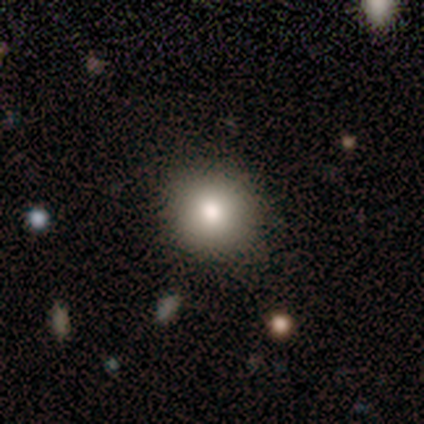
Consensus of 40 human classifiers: This is likely a smooth galaxy (72%). How rounded: clearly round (93%). Merging: clearly none (82%).